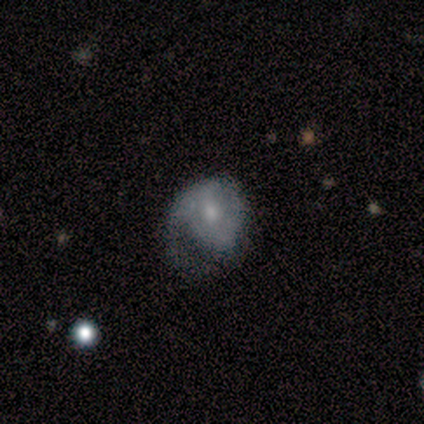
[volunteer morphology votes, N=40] Overall: featured or disk (75%). Edge-on disk: no (100%). Bar: no (60%; weak 33%). Spiral arms: yes (53%; no 47%). Spiral arm count: 1 (50%; 2 25%). Spiral winding: medium (44%; tight 38%). Bulge size: moderate (63%). Merging: major disturbance (45%; none 28%).